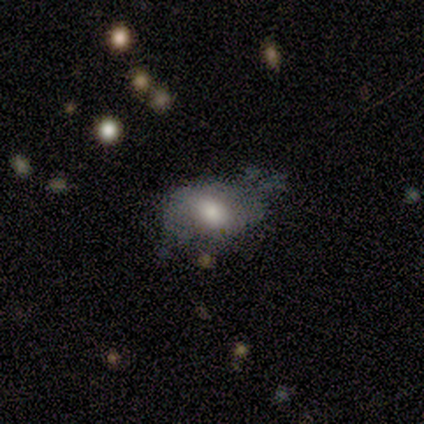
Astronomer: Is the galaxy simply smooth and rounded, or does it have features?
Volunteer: featured or disk — 49% (runner-up: smooth, 46%).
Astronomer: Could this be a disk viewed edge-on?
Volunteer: no — 100%.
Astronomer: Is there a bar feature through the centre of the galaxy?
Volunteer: no — 65%.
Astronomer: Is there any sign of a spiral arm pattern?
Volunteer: no — 75%.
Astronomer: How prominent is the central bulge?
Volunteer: moderate — 70%.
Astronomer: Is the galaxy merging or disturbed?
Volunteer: minor disturbance — 49% (runner-up: major disturbance, 36%).